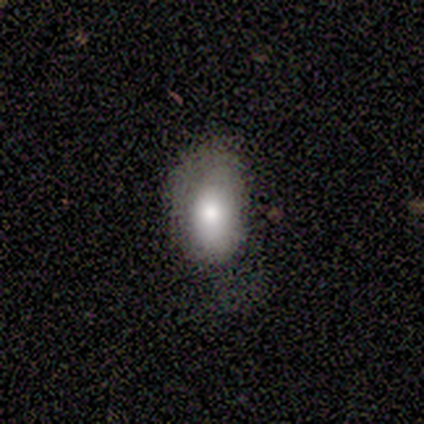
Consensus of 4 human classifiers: A smooth galaxy with no disk features (100%) that is in between round and cigar-shaped (100%).

Vote fractions:
- Smooth or featured? smooth: 100% / featured or disk: 0% / star or artifact: 0%
- How rounded? in between: 100% / round: 0% / cigar-shaped: 0%
- Merging? minor disturbance: 75% / none: 25% / major disturbance: 0% / merger: 0%